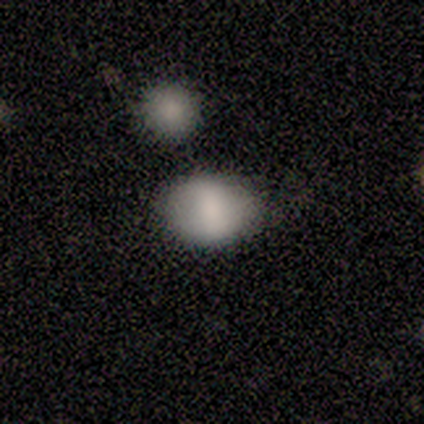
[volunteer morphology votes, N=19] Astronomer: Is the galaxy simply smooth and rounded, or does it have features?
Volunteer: smooth — 68%.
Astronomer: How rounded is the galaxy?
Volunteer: in between — 69%.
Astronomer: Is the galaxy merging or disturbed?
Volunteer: none — 71%.